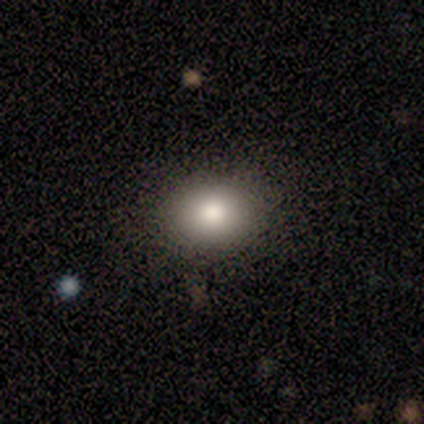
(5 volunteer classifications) A smooth galaxy with no disk features (100%) that is in between round and cigar-shaped (60%).

Vote fractions:
- Smooth or featured? smooth: 100% / featured or disk: 0% / star or artifact: 0%
- How rounded? in between: 60% / round: 40% / cigar-shaped: 0%
- Merging? none: 100% / minor disturbance: 0% / major disturbance: 0% / merger: 0%